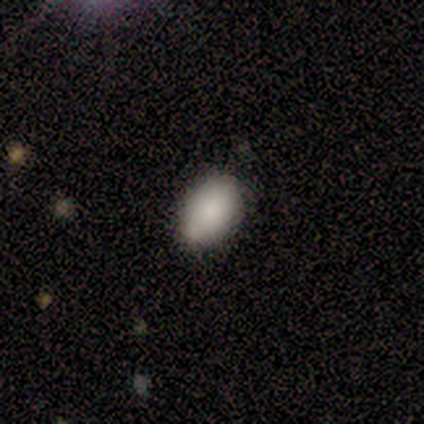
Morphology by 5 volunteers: Q: Smooth or featured?
A: smooth (80%); runner-up: featured or disk (20%)
Q: How rounded?
A: in between (100%)
Q: Merging?
A: none (100%)